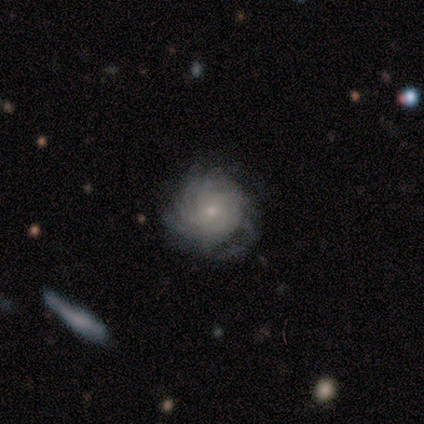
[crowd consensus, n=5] Smooth or featured: featured or disk — 80% (smooth — 20%)
Edge-on disk: no — 100%
Bar: weak — 50% (tied with no — 50%)
Spiral arms: yes — 100%
Spiral winding: tight — 75% (medium — 25%)
Spiral arm count: more than 4 — 50% (3 — 25%)
Bulge size: small — 100%
Merging: none — 100%